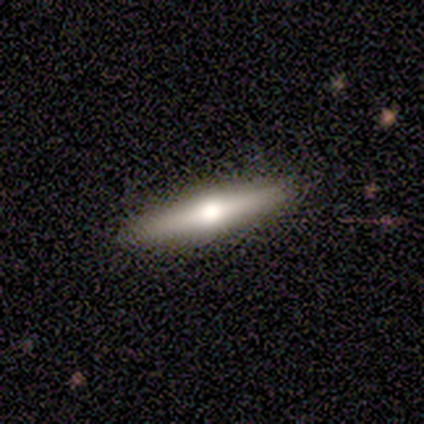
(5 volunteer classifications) Smooth or featured? featured or disk (100%)
Edge-on disk? yes (100%)
Edge-on bulge? rounded (100%)
Merging? none (80%)